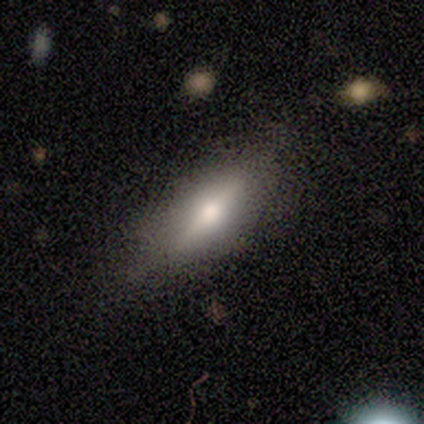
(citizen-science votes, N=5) A featured or disk galaxy (60%) with a weak bar (50%, tied with no), no spiral arms (100%) and a moderate central bulge (50%, tied with small).

Vote fractions:
- Smooth or featured? featured or disk: 60% / smooth: 40% / star or artifact: 0%
- Edge-on disk? no: 67% / yes: 33%
- Bar? weak: 50% (tied) / no: 50% (tied) / strong: 0%
- Spiral arms? no: 100% / yes: 0%
- Bulge size? moderate: 50% (tied) / small: 50% (tied) / dominant: 0% / large: 0% / none: 0%
- Merging? none: 100% / minor disturbance: 0% / major disturbance: 0% / merger: 0%